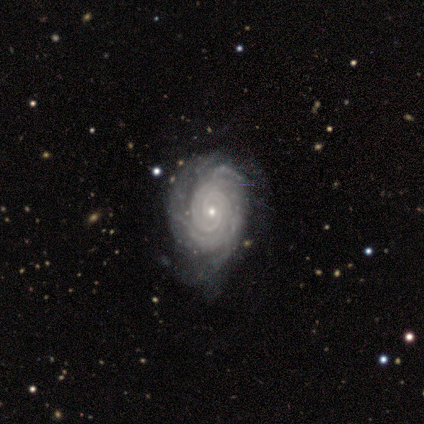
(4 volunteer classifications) Volunteers were most divided on "spiral arm count": can't tell: 50%, 2: 25%, more than 4: 25%, 1: 0%, 3: 0%, 4: 0%. More confident: smooth or featured — featured or disk (100%); edge-on disk — no (100%); spiral arms — yes (100%); spiral winding — tight (100%); bulge size — small (100%); bar — no (75%); merging — minor disturbance (75%).